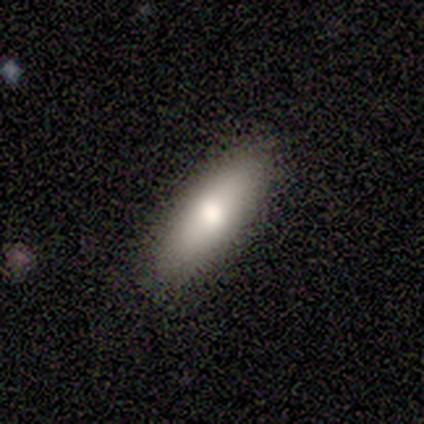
Overall: smooth (80%). How rounded: in between (75%). Merging: none (100%).